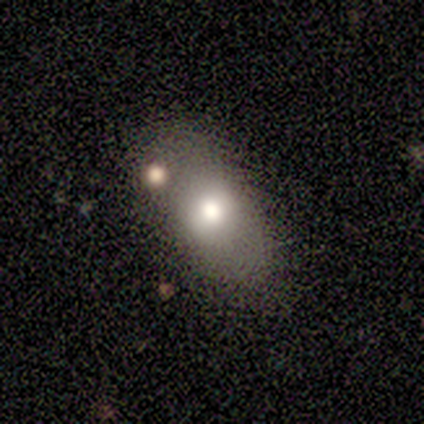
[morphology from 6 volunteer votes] A smooth galaxy with no disk features (83%) that is in between round and cigar-shaped (100%).

Vote fractions:
- Smooth or featured? smooth: 83% / star or artifact: 17% / featured or disk: 0%
- How rounded? in between: 100% / round: 0% / cigar-shaped: 0%
- Merging? none: 60% / minor disturbance: 20% / merger: 20% / major disturbance: 0%